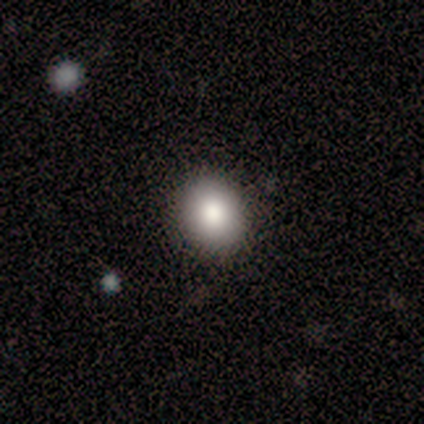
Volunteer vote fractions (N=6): smooth_or_featured: smooth (p=0.83) [alt: star or artifact p=0.17]
how_rounded: round (p=0.60) [alt: in between p=0.40]
merging: none (p=0.80) [alt: minor disturbance p=0.20]